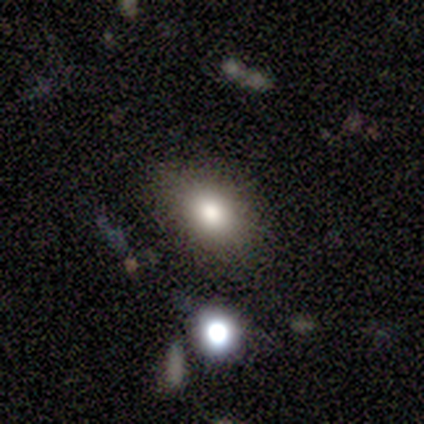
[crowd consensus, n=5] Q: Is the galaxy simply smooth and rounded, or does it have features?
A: smooth — 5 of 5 (100%).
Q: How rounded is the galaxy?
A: in between — 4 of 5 (80%).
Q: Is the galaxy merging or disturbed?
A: none — 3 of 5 (60%).